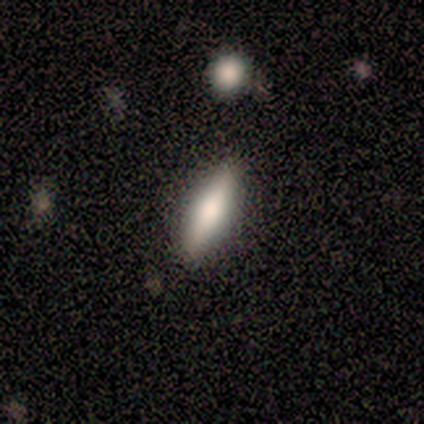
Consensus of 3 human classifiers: A smooth galaxy with no disk features (67%) that is cigar-shaped (100%). Merging: none (100%).